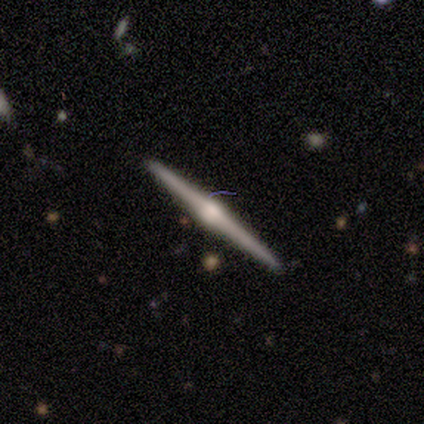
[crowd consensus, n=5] A featured or disk galaxy (80%) viewed edge-on (100%) with a rounded central bulge (100%).

Vote fractions:
- Smooth or featured? featured or disk: 80% / smooth: 20% / star or artifact: 0%
- Edge-on disk? yes: 100% / no: 0%
- Edge-on bulge? rounded: 100% / boxy: 0% / none: 0%
- Merging? none: 100% / minor disturbance: 0% / major disturbance: 0% / merger: 0%